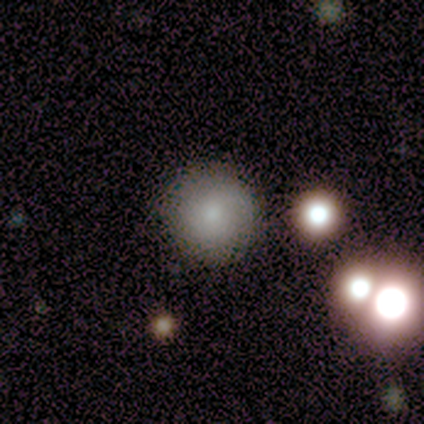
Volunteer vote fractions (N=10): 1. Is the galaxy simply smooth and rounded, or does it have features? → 80% smooth, 20% star or artifact, 0% featured or disk.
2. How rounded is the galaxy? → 100% round, 0% in between, 0% cigar-shaped.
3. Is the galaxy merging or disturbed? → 100% none, 0% minor disturbance, 0% major disturbance, 0% merger.